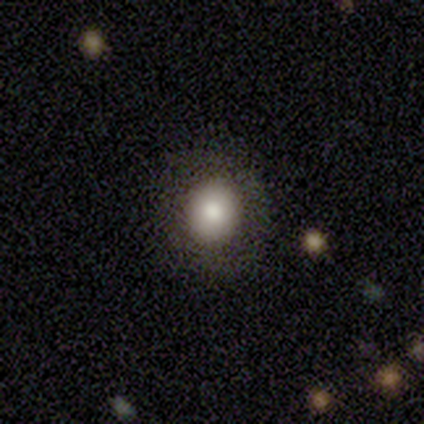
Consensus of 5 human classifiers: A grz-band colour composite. It shows a smooth galaxy with no disk features (80%) that is round (75%). Merging: none (75%).